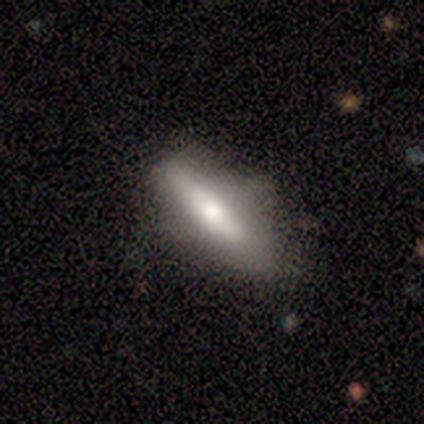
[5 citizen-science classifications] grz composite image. It shows a smooth galaxy with no disk features (100%) that is in between round and cigar-shaped (80%). Merging: none (40%).